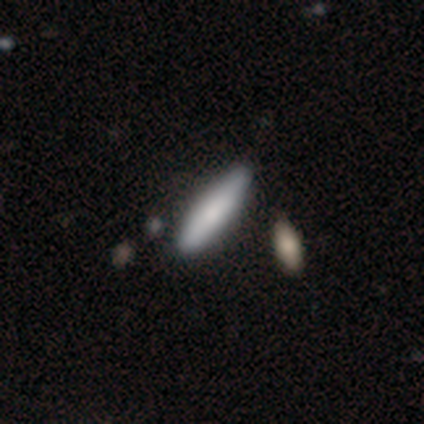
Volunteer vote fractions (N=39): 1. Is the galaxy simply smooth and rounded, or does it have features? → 82% smooth, 18% featured or disk, 0% star or artifact.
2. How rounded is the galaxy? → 72% cigar-shaped, 28% in between, 0% round.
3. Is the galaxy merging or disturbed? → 59% none, 10% minor disturbance, 8% merger, 3% major disturbance.